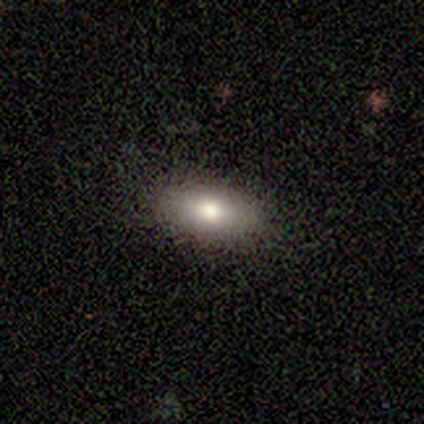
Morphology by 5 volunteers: A smooth galaxy with no disk features (60%) that is in between round and cigar-shaped (100%).

Vote fractions:
- Smooth or featured? smooth: 60% / featured or disk: 40% / star or artifact: 0%
- How rounded? in between: 100% / round: 0% / cigar-shaped: 0%
- Merging? none: 100% / minor disturbance: 0% / major disturbance: 0% / merger: 0%